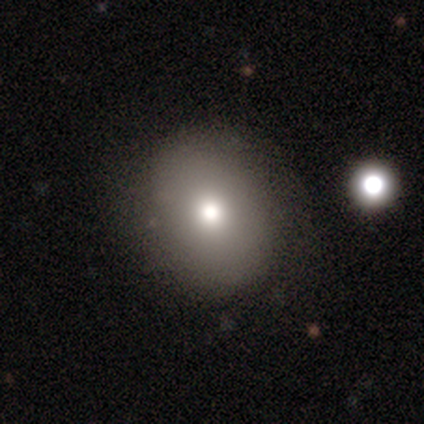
Volunteers were most divided on "how rounded": round: 75%, in between: 25%, cigar-shaped: 0%. More confident: merging — none (100%); smooth or featured — smooth (80%).